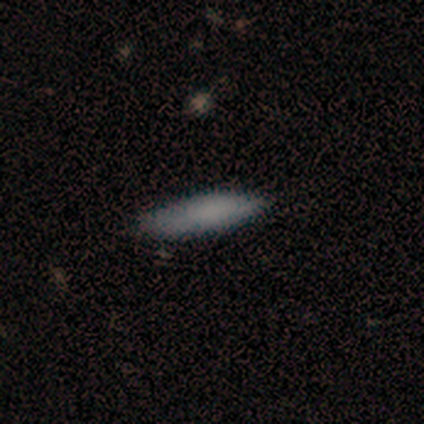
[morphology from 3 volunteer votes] smooth-or-featured: smooth: 67% | featured or disk: 33% | star or artifact: 0%
  how-rounded: in between: 50% (tied) | cigar-shaped: 50% (tied) | round: 0%
  merging: minor disturbance: 67% | none: 33% | major disturbance: 0% | merger: 0%